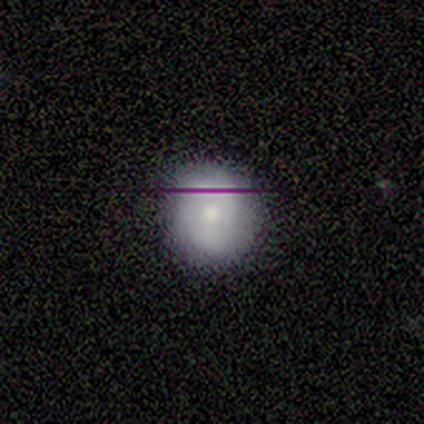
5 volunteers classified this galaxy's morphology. type=smooth (100%); roundness=round (100%); merging=none (80%).